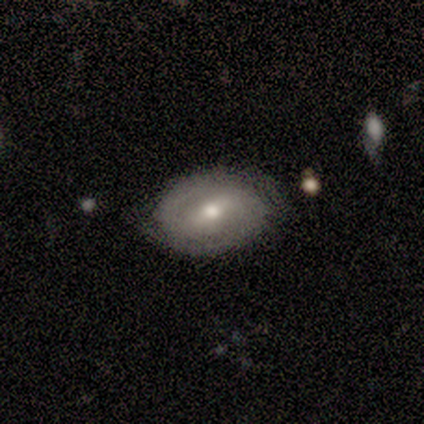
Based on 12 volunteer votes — featured or disk 67%, smooth 33%, star or artifact 0%. Down the decision tree: edge-on disk — no (100%); bar — weak (62%); spiral arms — yes (50%, tied with no); spiral arm count — 2 (75%); spiral winding — tight (75%); bulge size — moderate (88%); merging — none (50%).